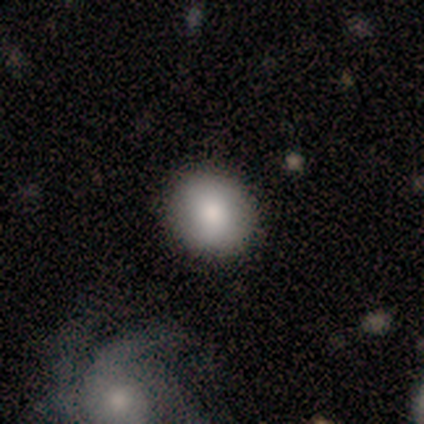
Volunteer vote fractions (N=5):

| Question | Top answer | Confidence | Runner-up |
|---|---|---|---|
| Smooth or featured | smooth | 80% | featured or disk (20%) |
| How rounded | round | 75% | in between (25%) |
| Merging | none | 80% | merger (20%) |